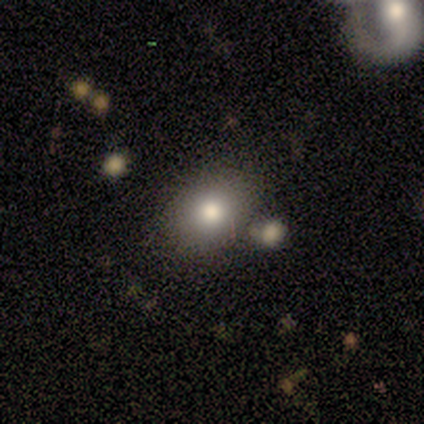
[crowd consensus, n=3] Overall: smooth (33%, tied with featured or disk and star or artifact). How rounded: round (100%). Merging: none (100%).